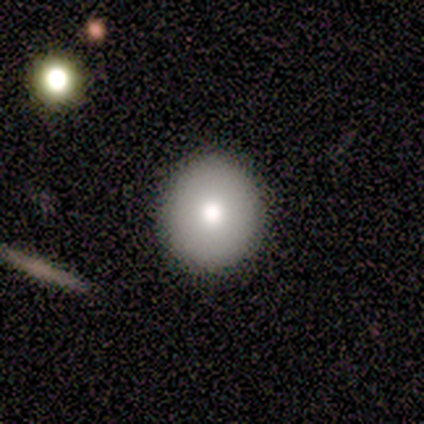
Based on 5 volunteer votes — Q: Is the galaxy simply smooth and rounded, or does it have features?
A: smooth — 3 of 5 (60%).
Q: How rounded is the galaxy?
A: in between — 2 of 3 (67%).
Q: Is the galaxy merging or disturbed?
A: none — 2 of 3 (67%).